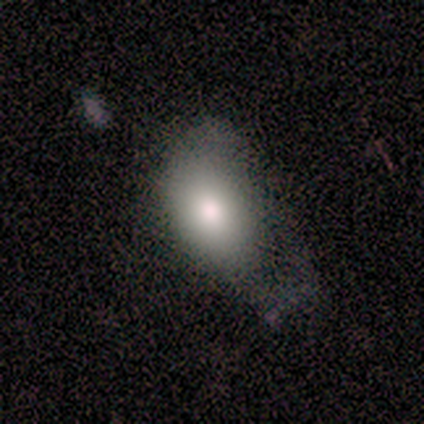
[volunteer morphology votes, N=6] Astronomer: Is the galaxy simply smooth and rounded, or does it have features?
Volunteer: smooth — 67%.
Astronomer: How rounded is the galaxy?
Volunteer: round — 50%, tied with in between at 50%.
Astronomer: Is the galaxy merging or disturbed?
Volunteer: major disturbance — 50% (runner-up: minor disturbance, 33%).